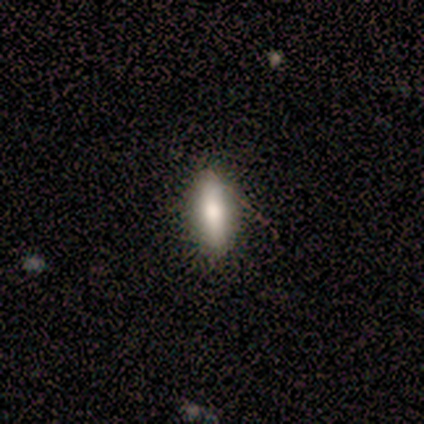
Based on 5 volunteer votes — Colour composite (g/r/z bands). It shows a smooth galaxy with no disk features (60%) that is in between round and cigar-shaped (67%). Merging: none (100%).